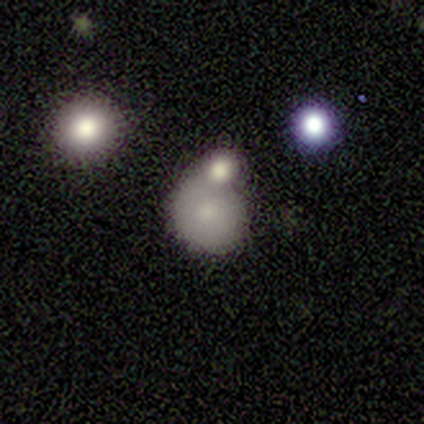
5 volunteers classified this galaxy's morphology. Volunteers were most divided on "smooth or featured": smooth: 60%, featured or disk: 20%, star or artifact: 20%. More confident: how rounded — round (100%); merging — none (75%).